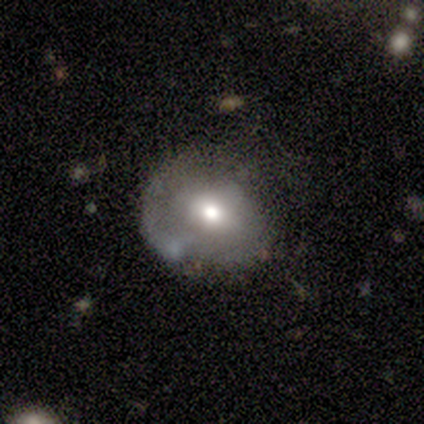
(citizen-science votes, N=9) smooth 56%, featured or disk 33%, star or artifact 11%. Down the decision tree: how rounded — round (60%); merging — minor disturbance (88%).